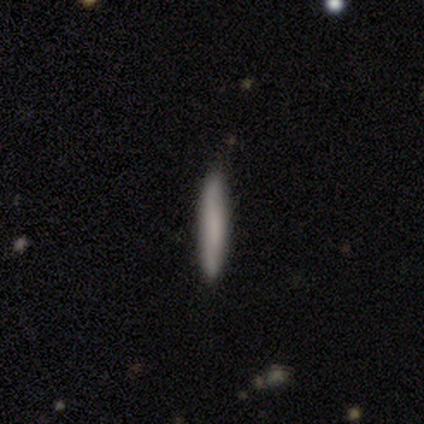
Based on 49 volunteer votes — Smooth or featured? smooth (84%)
How rounded? cigar-shaped (98%)
Merging? none (89%)